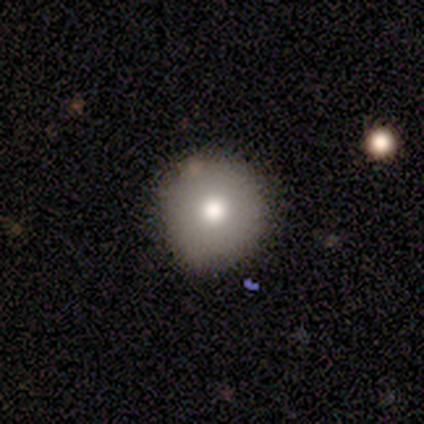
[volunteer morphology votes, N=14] This appears to be a smooth galaxy with no disk features (71%) that is round (90%). Merging: none (85%).